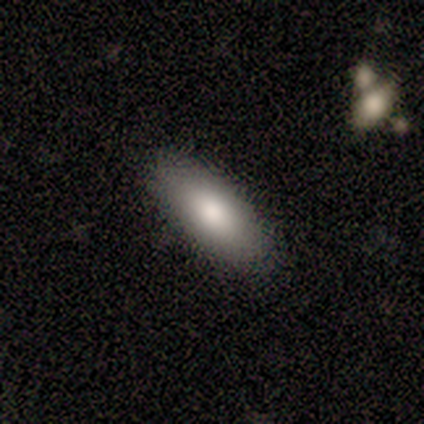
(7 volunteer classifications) This appears to be a smooth galaxy with no disk features (57%) that is in between round and cigar-shaped (75%). Merging: none (86%).